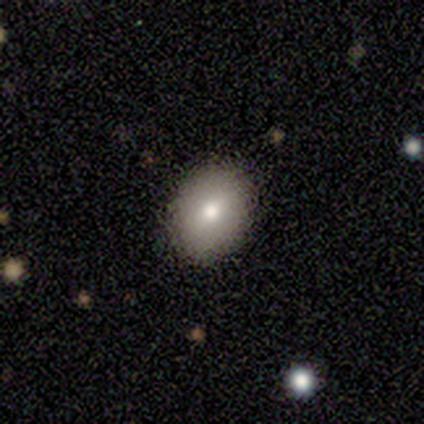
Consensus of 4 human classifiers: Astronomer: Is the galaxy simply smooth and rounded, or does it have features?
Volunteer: smooth — 50%.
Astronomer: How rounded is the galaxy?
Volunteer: in between — 100%.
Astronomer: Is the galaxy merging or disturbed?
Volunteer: none — 100%.